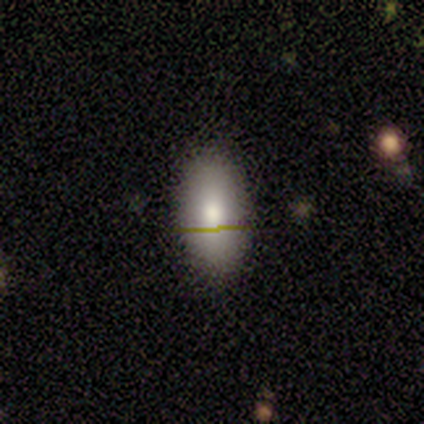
Q: Smooth or featured?
A: smooth (86%); runner-up: featured or disk (14%)
Q: How rounded?
A: in between (100%)
Q: Merging?
A: none (71%); runner-up: minor disturbance (29%)